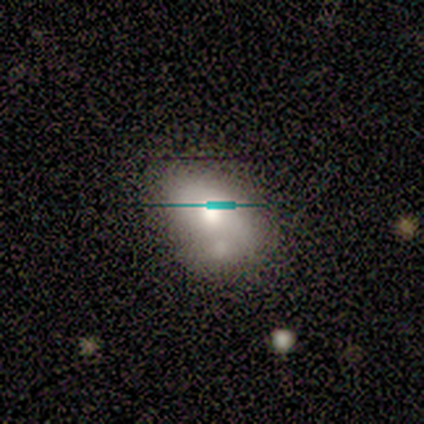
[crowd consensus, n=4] Smooth or featured?
  - smooth: 50% * (tied)
  - featured or disk: 50% * (tied)
  - star or artifact: 0%
How rounded?
  - in between: 100% *
  - round: 0%
  - cigar-shaped: 0%
Merging?
  - none: 75% *
  - merger: 25%
  - minor disturbance: 0%
  - major disturbance: 0%